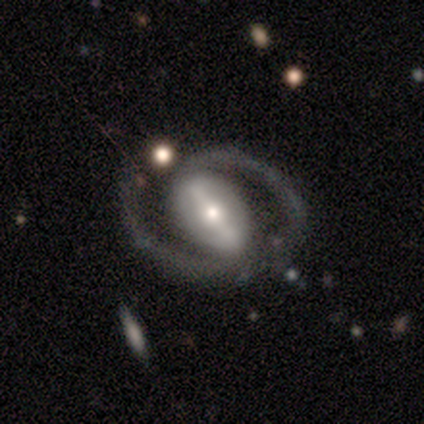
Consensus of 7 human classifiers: Smooth or featured? featured or disk (86%)
Edge-on disk? no (67%)
Bar? weak (75%)
Spiral arms? yes (100%)
Spiral winding? medium (100%)
Spiral arm count? 2 (100%)
Bulge size? moderate (50%)
Merging? none (71%)